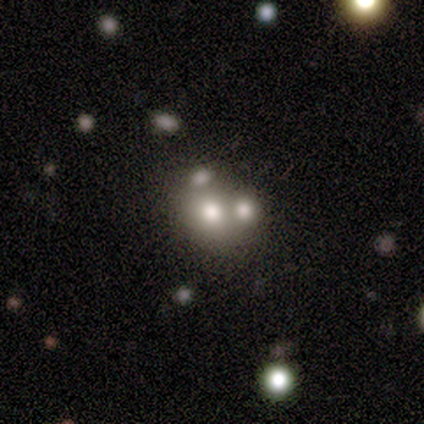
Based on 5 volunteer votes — Smooth or featured?
  - smooth: 80% *
  - star or artifact: 20%
  - featured or disk: 0%
How rounded?
  - round: 100% *
  - in between: 0%
  - cigar-shaped: 0%
Merging?
  - none: 75% *
  - merger: 25%
  - minor disturbance: 0%
  - major disturbance: 0%